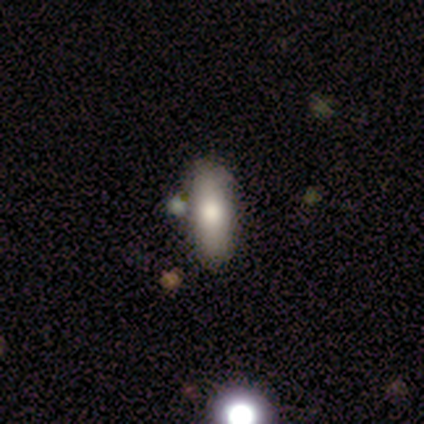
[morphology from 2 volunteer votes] Consensus on every question: smooth or featured — smooth (100%); how rounded — cigar-shaped (100%); merging — none (100%).